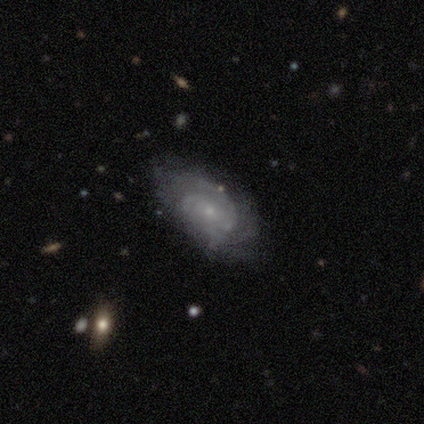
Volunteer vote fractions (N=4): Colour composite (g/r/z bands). It shows a featured or disk galaxy (75%) with no bar (67%), tight (67%) spiral arms (100%) and a small central bulge (100%). Merging: none (75%).